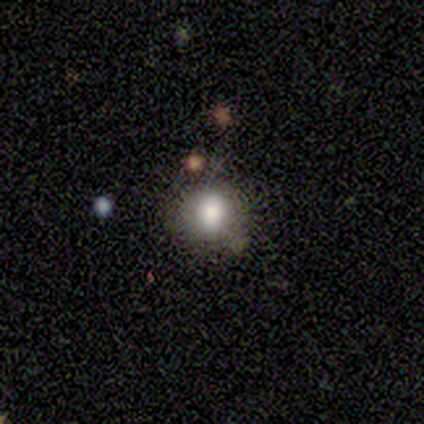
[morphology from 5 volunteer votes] Overall: smooth (80%). How rounded: round (75%). Merging: none (75%).